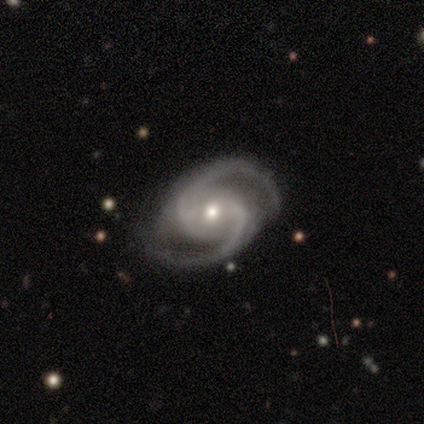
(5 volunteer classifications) This appears to be a featured or disk galaxy (100%) with a weak bar (60%), 2 (80%) medium (100%) spiral arms (100%) and a moderate central bulge (80%). Merging: none (80%).